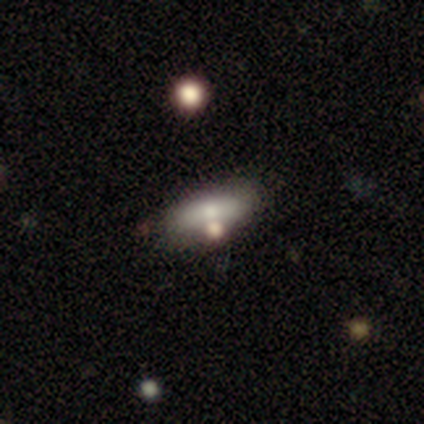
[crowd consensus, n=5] Smooth or featured: smooth — 80% (star or artifact — 20%)
How rounded: in between — 75% (cigar-shaped — 25%)
Merging: none — 50% (minor disturbance — 25%)